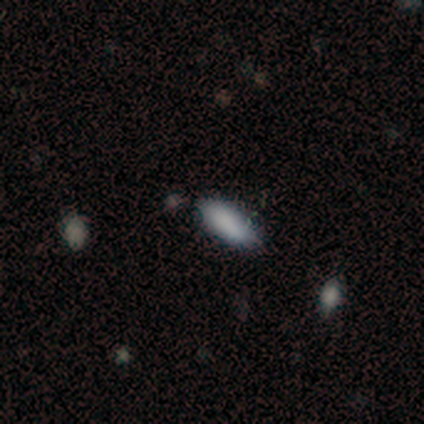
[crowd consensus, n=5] Morphology: type=smooth (80%); roundness=in between (75%); merging=none (100%).